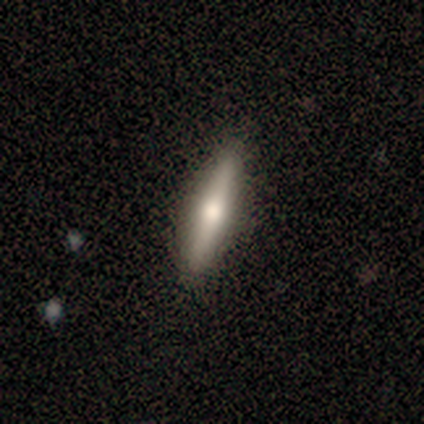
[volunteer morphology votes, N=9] Smooth or featured? 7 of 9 (78%) said smooth. How rounded? 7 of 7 (100%) said cigar-shaped. Merging? 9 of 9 (100%) said none.